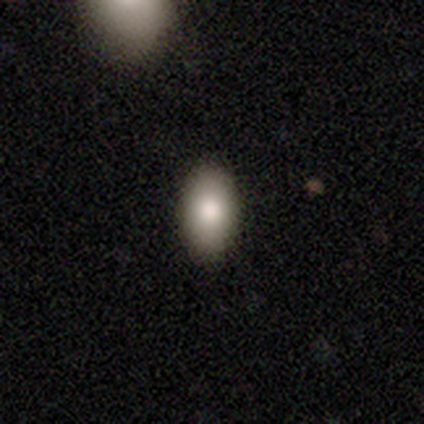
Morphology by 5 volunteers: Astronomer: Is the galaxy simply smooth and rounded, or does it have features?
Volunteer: smooth — 100%.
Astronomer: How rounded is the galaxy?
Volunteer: in between — 100%.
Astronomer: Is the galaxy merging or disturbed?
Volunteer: none — 100%.